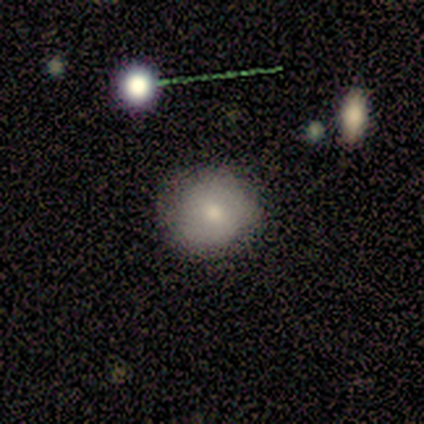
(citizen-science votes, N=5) Morphology: type=smooth (60%); roundness=round (100%); merging=none (100%).